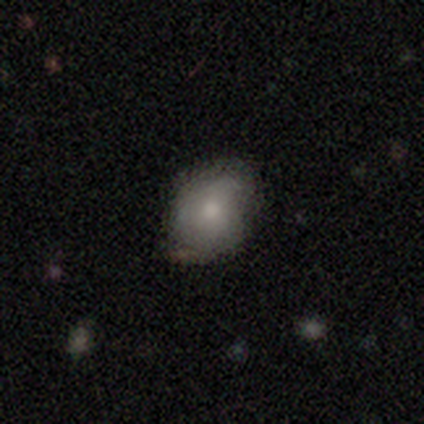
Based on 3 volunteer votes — Q: Smooth or featured?
A: smooth (67%); runner-up: featured or disk (33%)
Q: How rounded?
A: round (50%); tied with: in between (50%)
Q: Merging?
A: minor disturbance (67%); runner-up: none (33%)